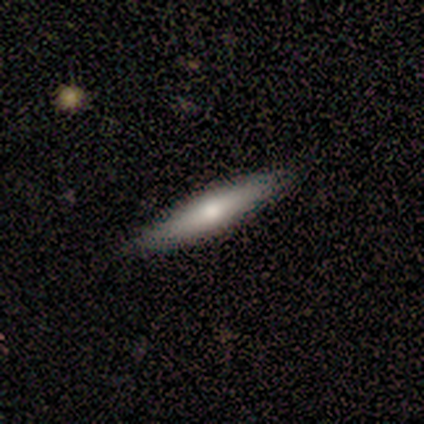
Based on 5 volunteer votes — A smooth galaxy with no disk features (80%) that is cigar-shaped (100%).

Vote fractions:
- Smooth or featured? smooth: 80% / featured or disk: 20% / star or artifact: 0%
- How rounded? cigar-shaped: 100% / round: 0% / in between: 0%
- Merging? none: 100% / minor disturbance: 0% / major disturbance: 0% / merger: 0%